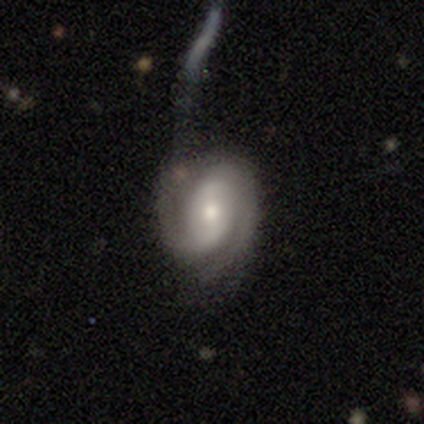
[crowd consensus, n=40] This appears to be a featured or disk galaxy (82%) with no bar (47%), 2 (91%) tight (47%) spiral arms (100%) and a moderate central bulge (56%). Merging: major disturbance (59%).